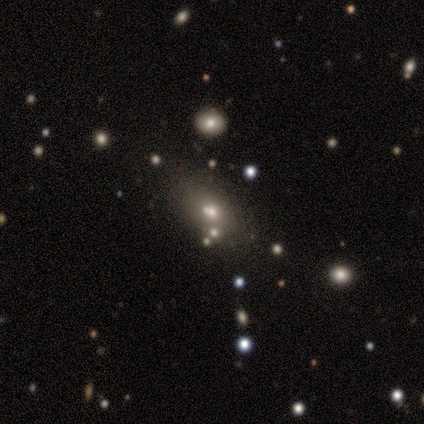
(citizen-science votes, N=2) Smooth or featured? 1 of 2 (50%, tied with star or artifact) said featured or disk. Edge-on disk? 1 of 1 (100%) said no. Bar? 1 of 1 (100%) said no. Spiral arms? 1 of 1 (100%) said no. Bulge size? 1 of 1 (100%) said large. Merging? 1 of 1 (100%) said none.